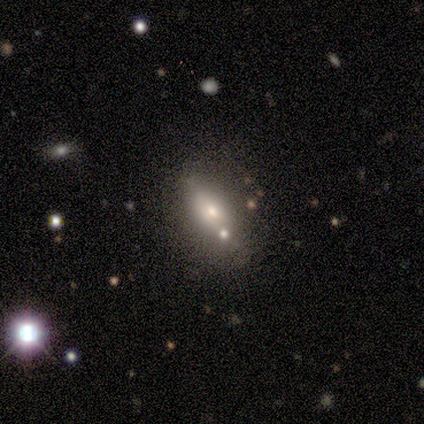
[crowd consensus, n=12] smooth 67%, featured or disk 33%, star or artifact 0%. Down the decision tree: how rounded — in between (88%); merging — none (58%).